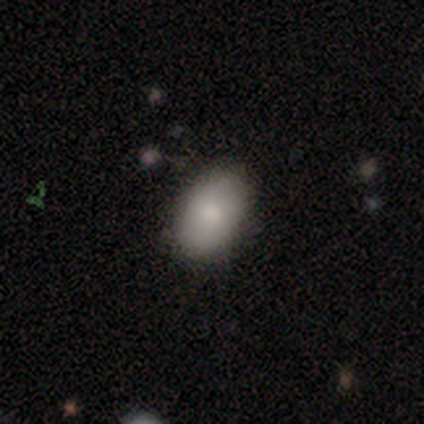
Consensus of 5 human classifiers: Smooth or featured?
  - smooth: 80% *
  - featured or disk: 20%
  - star or artifact: 0%
How rounded?
  - in between: 75% *
  - round: 25%
  - cigar-shaped: 0%
Merging?
  - none: 100% *
  - minor disturbance: 0%
  - major disturbance: 0%
  - merger: 0%